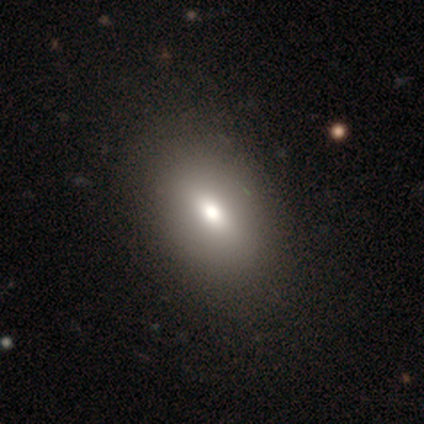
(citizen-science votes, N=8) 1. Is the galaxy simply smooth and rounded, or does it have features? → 75% smooth, 25% featured or disk, 0% star or artifact.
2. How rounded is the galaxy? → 50% in between, 33% round, 17% cigar-shaped.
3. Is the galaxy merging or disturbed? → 88% none, 12% minor disturbance, 0% major disturbance, 0% merger.